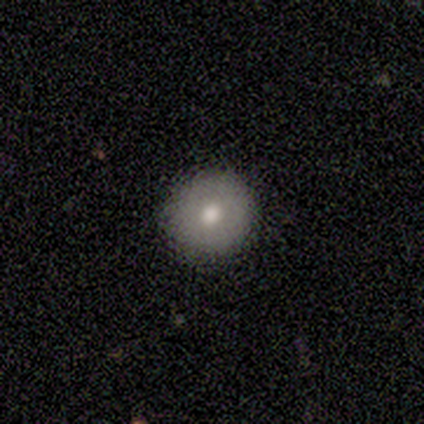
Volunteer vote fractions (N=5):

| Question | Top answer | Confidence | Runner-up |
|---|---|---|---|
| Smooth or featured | smooth | 60% | featured or disk (20%) |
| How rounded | round | 100% | — |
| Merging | none | 100% | — |